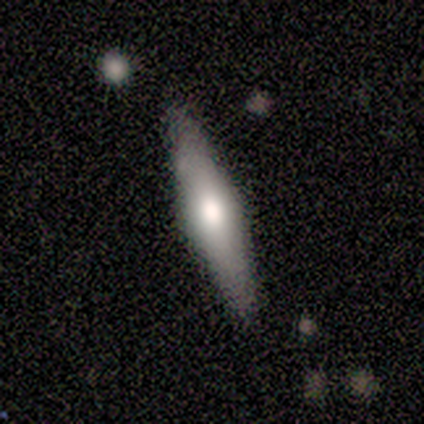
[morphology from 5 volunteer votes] A smooth galaxy with no disk features (60%) that is cigar-shaped (100%).

Vote fractions:
- Smooth or featured? smooth: 60% / featured or disk: 40% / star or artifact: 0%
- How rounded? cigar-shaped: 100% / round: 0% / in between: 0%
- Merging? none: 80% / minor disturbance: 20% / major disturbance: 0% / merger: 0%